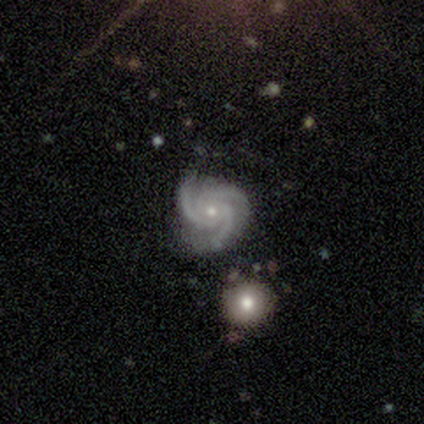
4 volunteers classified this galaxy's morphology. This appears to be a featured or disk galaxy (100%) with no bar (75%), 3 (100%) tight (75%) spiral arms (100%) and a moderate central bulge (50%, tied with small). Merging: none (75%).